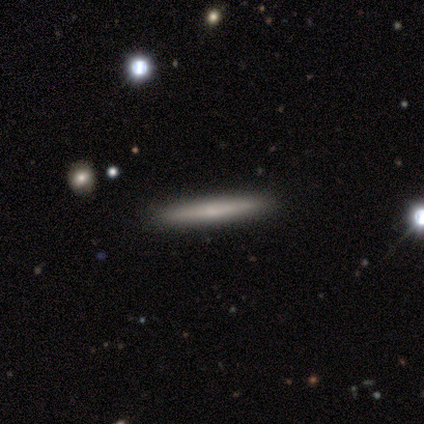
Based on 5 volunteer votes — Overall: featured or disk (60%; smooth 40%). Edge-on disk: yes (100%). Edge-on bulge: none (100%). Merging: none (100%).